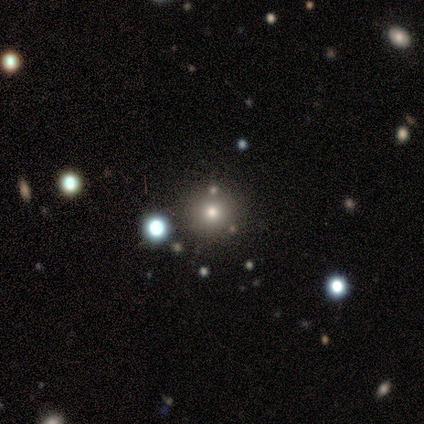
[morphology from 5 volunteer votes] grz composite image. It shows a smooth galaxy with no disk features (80%) that is round (100%). Merging: none (75%).